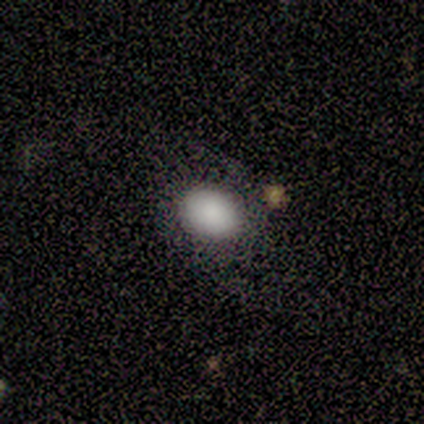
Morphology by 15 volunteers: Smooth or featured? smooth (87%)
How rounded? in between (62%)
Merging? none (71%)